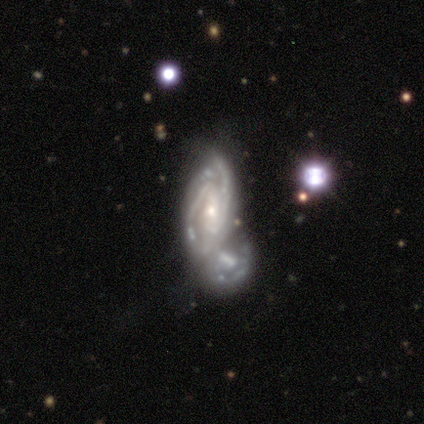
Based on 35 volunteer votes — This is clearly a featured or disk galaxy (89%). It is clearly not viewed edge-on (97%). Bar: possibly no (53%). Spiral arm pattern: clearly yes (93%). Spiral arm count: likely 2 (79%). Spiral winding: possibly tight (57%). Central bulge: possibly small (57%). Merging: possibly merger (55%).